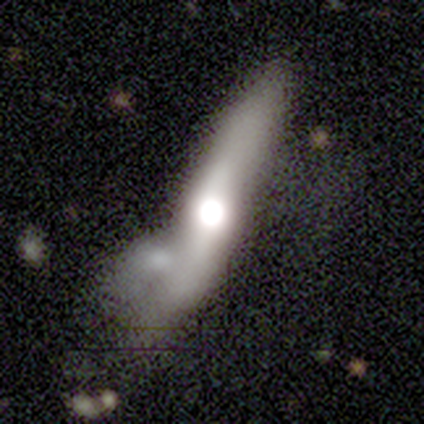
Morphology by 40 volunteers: Smooth or featured?
  - featured or disk: 55% *
  - smooth: 28%
  - star or artifact: 18%
Edge-on disk?
  - yes: 91% *
  - no: 9%
Edge-on bulge?
  - rounded: 90% *
  - boxy: 5%
  - none: 5%
Merging?
  - merger: 61% *
  - none: 15%
  - minor disturbance: 15%
  - major disturbance: 9%